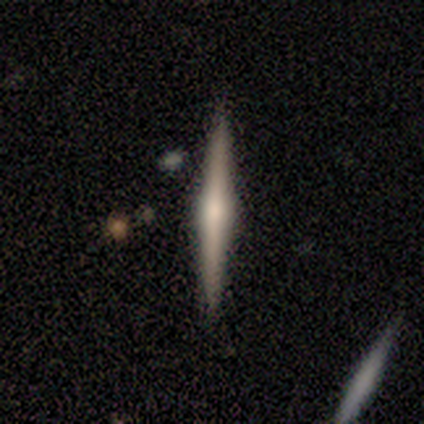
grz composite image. It shows a featured or disk galaxy (100%) viewed edge-on (100%) with a rounded central bulge (80%). Merging: none (80%).